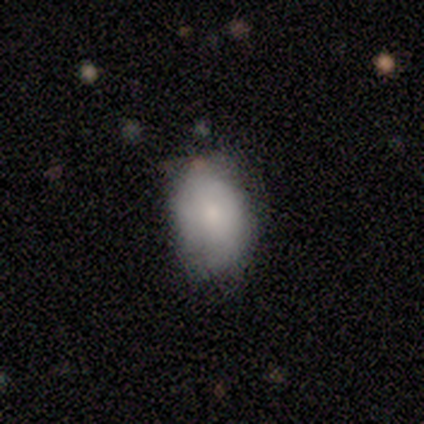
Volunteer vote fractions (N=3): Smooth or featured?
  - smooth: 100% *
  - featured or disk: 0%
  - star or artifact: 0%
How rounded?
  - in between: 100% *
  - round: 0%
  - cigar-shaped: 0%
Merging?
  - none: 67% *
  - minor disturbance: 33%
  - major disturbance: 0%
  - merger: 0%